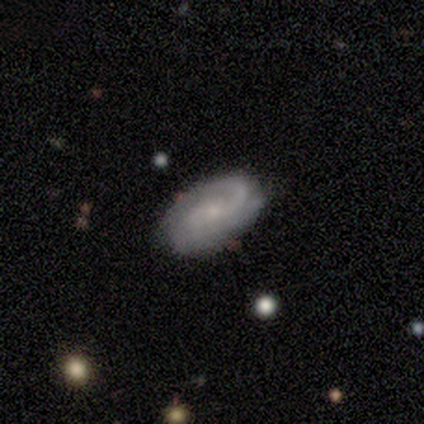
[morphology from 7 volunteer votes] Volunteers were most divided on "spiral winding": medium: 50%, tight: 33%, loose: 17%. More confident: edge-on disk — no (100%); spiral arms — yes (100%); smooth or featured — featured or disk (86%); merging — none (67%); bar — no (67%); spiral arm count — can't tell (67%); bulge size — small (67%).